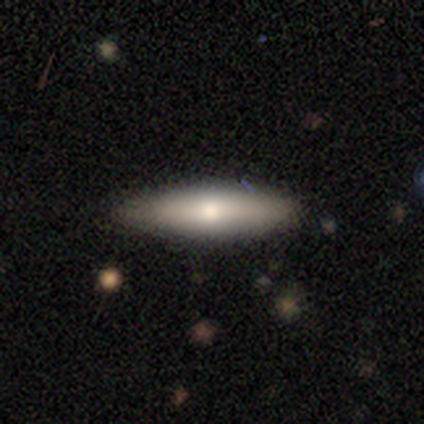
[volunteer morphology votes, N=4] Smooth or featured: smooth — 50% (featured or disk — 25%)
How rounded: in between — 50% (tied with cigar-shaped — 50%)
Merging: none — 100%